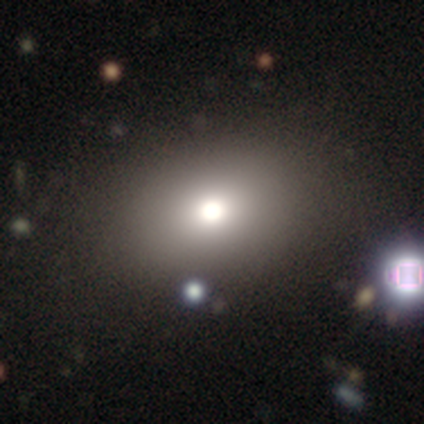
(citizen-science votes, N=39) This is likely a smooth galaxy (62%). How rounded: possibly in between (50%). Merging: clearly none (83%).